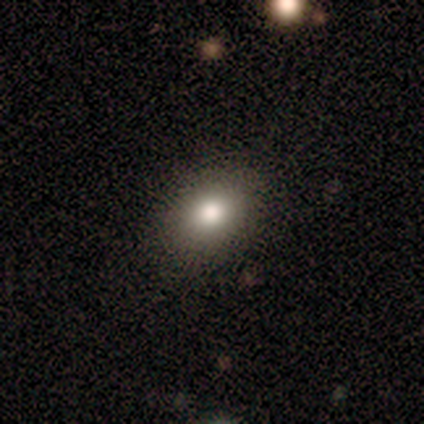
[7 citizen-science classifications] smooth 71%, featured or disk 14%, star or artifact 14%. Down the decision tree: how rounded — in between (80%); merging — none (100%).